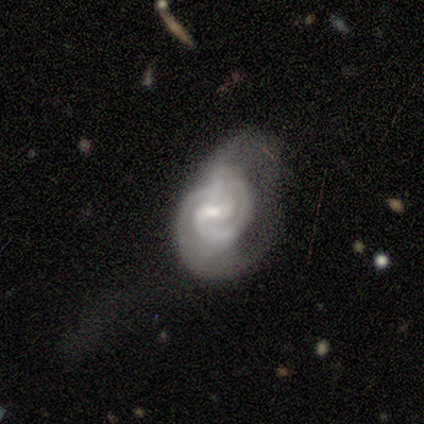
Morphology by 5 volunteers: A featured or disk galaxy (100%) with a weak bar (80%), 2 (60%) tight (100%) spiral arms (100%) and a small central bulge (60%). Merging: minor disturbance (40%, tied with major disturbance).